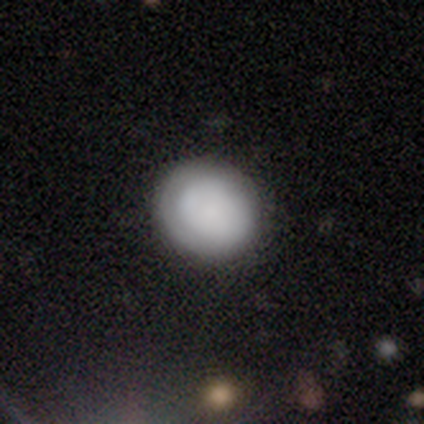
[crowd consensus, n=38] A smooth galaxy with no disk features (74%) that is round (89%).

Vote fractions:
- Smooth or featured? smooth: 74% / featured or disk: 18% / star or artifact: 8%
- How rounded? round: 89% / in between: 11% / cigar-shaped: 0%
- Merging? none: 91% / minor disturbance: 6% / merger: 3% / major disturbance: 0%